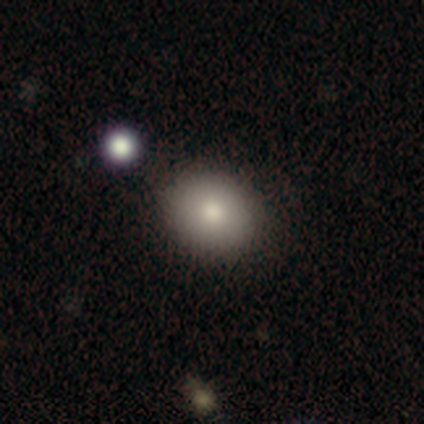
Q: Smooth or featured?
A: smooth (67%); runner-up: featured or disk (17%)
Q: How rounded?
A: round (50%); tied with: in between (50%)
Q: Merging?
A: none (100%)